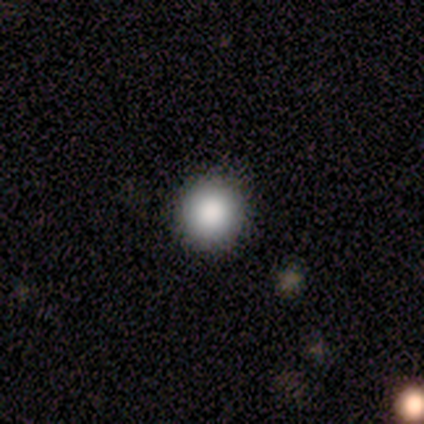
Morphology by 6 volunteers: Volunteers were most divided on "smooth or featured": smooth: 83%, star or artifact: 17%, featured or disk: 0%. More confident: how rounded — round (100%); merging — none (100%).